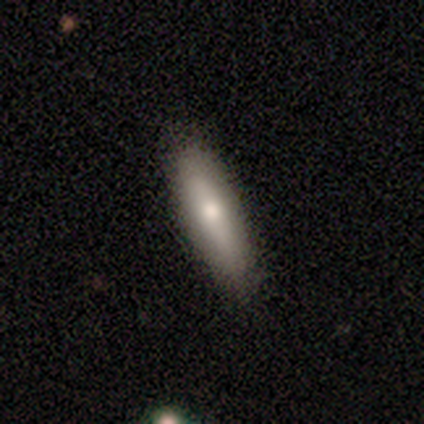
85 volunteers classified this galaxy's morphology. Volunteers were most divided on "how rounded": cigar-shaped: 73%, in between: 26%, round: 1%. More confident: merging — none (85%); smooth or featured — smooth (82%).